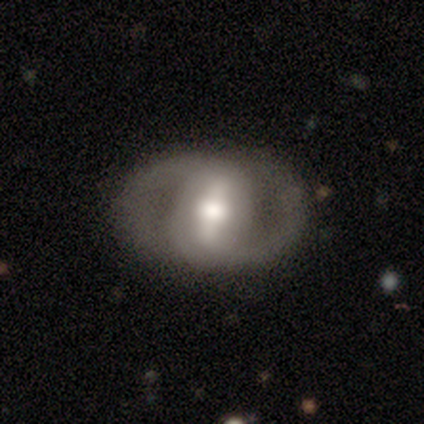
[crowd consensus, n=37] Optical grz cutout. It shows a featured or disk galaxy (86%) with a strong bar (71%), 2 (83%) medium (46%) spiral arms (77%) and a moderate central bulge (61%). Merging: none (59%).